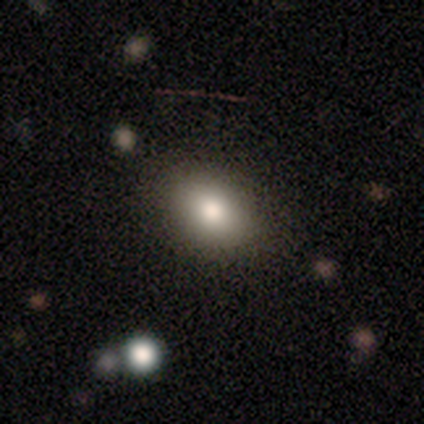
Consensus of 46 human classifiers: Q: Smooth or featured?
A: smooth (83%); runner-up: star or artifact (11%)
Q: How rounded?
A: in between (76%); runner-up: round (24%)
Q: Merging?
A: none (93%); runner-up: minor disturbance (5%)